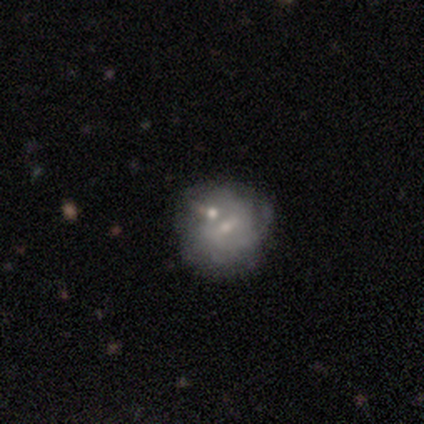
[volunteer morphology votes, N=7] Smooth or featured? 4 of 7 (57%) said featured or disk. Edge-on disk? 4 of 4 (100%) said no. Bar? 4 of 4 (100%) said weak. Spiral arms? 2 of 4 (50%, tied with no) said yes. Spiral winding? 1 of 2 (50%, tied with medium) said tight. Spiral arm count? 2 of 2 (100%) said can't tell. Bulge size? 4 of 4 (100%) said small. Merging? 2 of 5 (40%, tied with minor disturbance) said none.